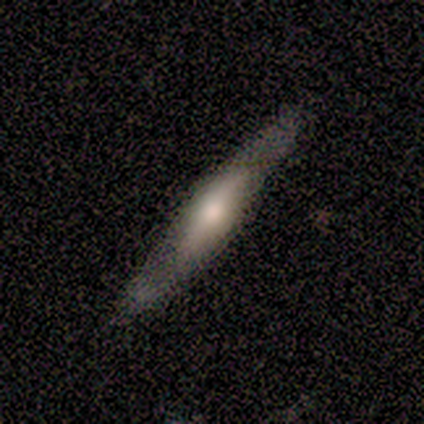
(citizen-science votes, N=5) Q: Smooth or featured?
A: featured or disk (60%); runner-up: smooth (40%)
Q: Edge-on disk?
A: yes (100%)
Q: Edge-on bulge?
A: rounded (67%); runner-up: none (33%)
Q: Merging?
A: none (100%)